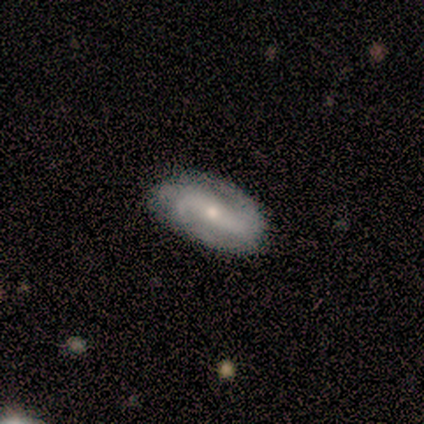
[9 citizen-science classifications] Smooth or featured? featured or disk (89%)
Edge-on disk? no (100%)
Bar? strong (62%)
Spiral arms? yes (100%)
Spiral winding? medium (62%)
Spiral arm count? 2 (75%)
Bulge size? small (62%)
Merging? none (88%)